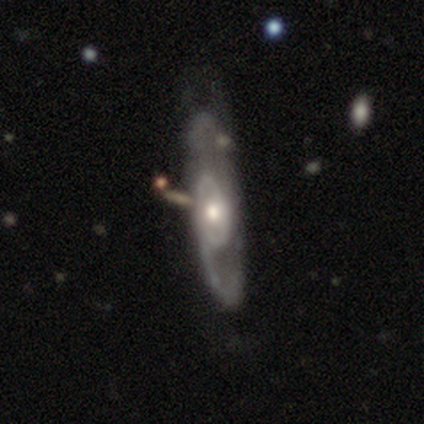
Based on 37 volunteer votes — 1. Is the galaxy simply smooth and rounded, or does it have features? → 86% featured or disk, 11% smooth, 3% star or artifact.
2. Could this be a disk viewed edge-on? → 91% no, 9% yes.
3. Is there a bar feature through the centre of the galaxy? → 76% no, 17% weak, 7% strong.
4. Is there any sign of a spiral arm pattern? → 59% yes, 41% no.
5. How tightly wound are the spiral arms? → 41% medium, 35% loose, 24% tight.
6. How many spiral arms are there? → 41% 1 (tied), 41% 2 (tied), 18% can't tell, 0% 3, 0% 4, 0% more than 4.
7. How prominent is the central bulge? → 62% moderate, 24% small, 10% large, 3% none, 0% dominant.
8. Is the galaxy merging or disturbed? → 36% none, 19% merger, 11% minor disturbance, 8% major disturbance.